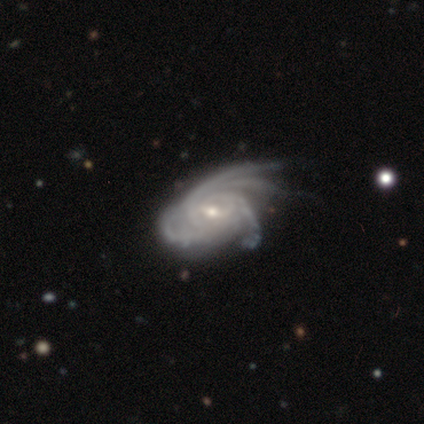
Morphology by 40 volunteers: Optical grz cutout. It shows a featured or disk galaxy (92%) with a weak bar (59%), 4 (57%) tight (62%) spiral arms (100%) and a small central bulge (62%). Merging: minor disturbance (39%).